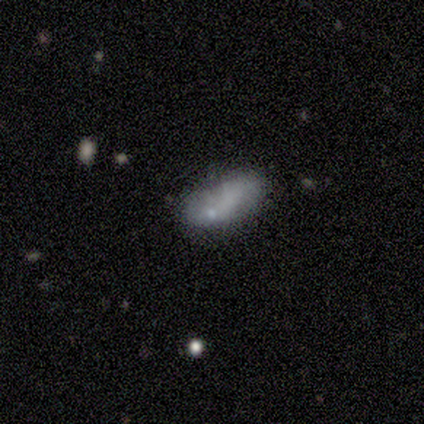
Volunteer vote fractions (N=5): Smooth or featured: smooth — 100%
How rounded: in between — 100%
Merging: none — 40% (minor disturbance — 20%)